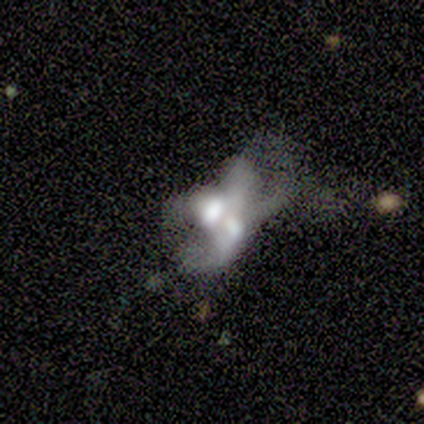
featured or disk 80%, smooth 20%, star or artifact 0%. Down the decision tree: edge-on disk — no (100%); bar — no (100%); spiral arms — no (75%); bulge size — moderate (50%); merging — merger (60%).